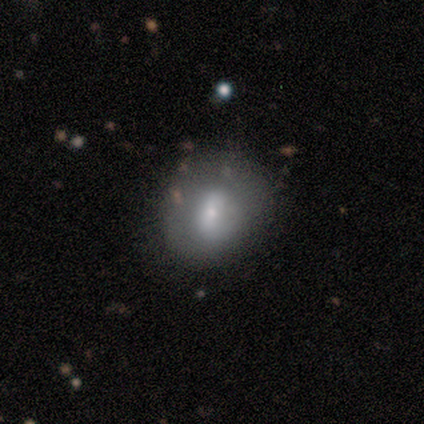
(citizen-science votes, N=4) This appears to be a smooth galaxy with no disk features (75%) that is round (67%). Merging: none (50%, tied with minor disturbance).